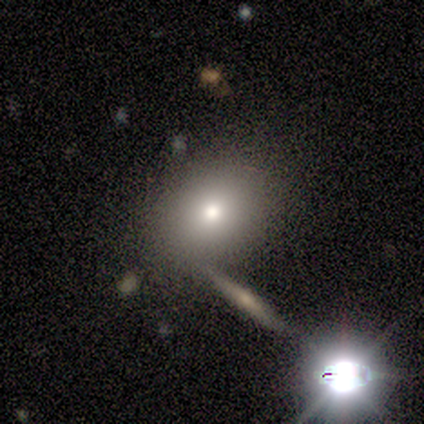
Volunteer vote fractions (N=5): Q: Smooth or featured?
A: smooth (40%); tied with: star or artifact (40%)
Q: How rounded?
A: round (50%); tied with: in between (50%)
Q: Merging?
A: none (67%); runner-up: merger (33%)